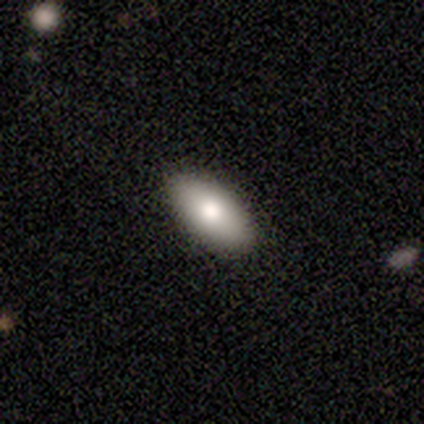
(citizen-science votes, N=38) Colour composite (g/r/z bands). It shows a smooth galaxy with no disk features (84%) that is in between round and cigar-shaped (91%). Merging: none (95%).